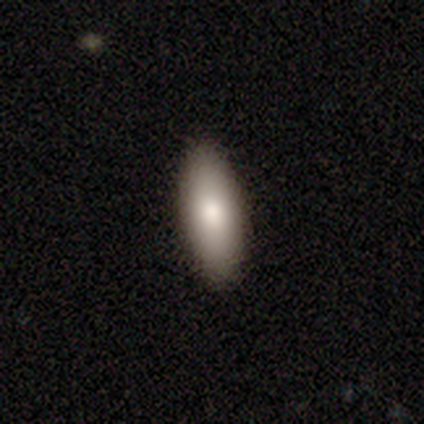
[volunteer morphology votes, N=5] Smooth or featured? 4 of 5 (80%) said smooth. How rounded? 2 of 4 (50%, tied with cigar-shaped) said in between. Merging? 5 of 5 (100%) said none.